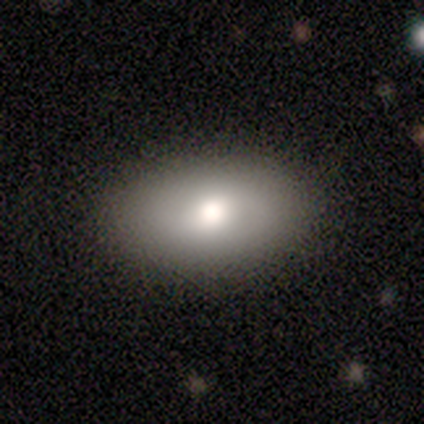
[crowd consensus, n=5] smooth-or-featured: smooth: 60% | featured or disk: 20% | star or artifact: 20%
  how-rounded: in between: 100% | round: 0% | cigar-shaped: 0%
  merging: none: 75% | major disturbance: 25% | minor disturbance: 0% | merger: 0%